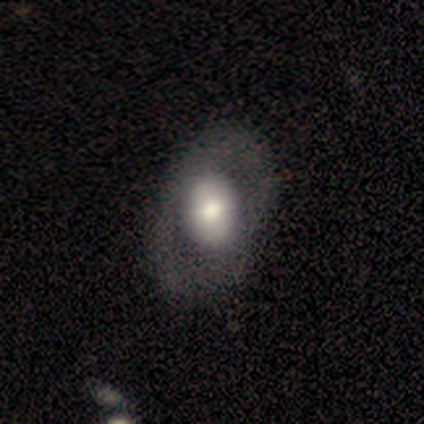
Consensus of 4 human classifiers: Smooth or featured? smooth (50%)
How rounded? round (50%, tied with in between)
Merging? none (67%)